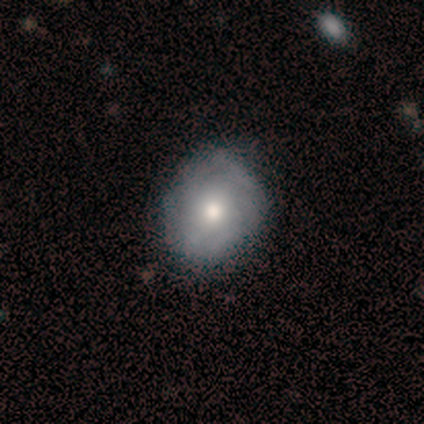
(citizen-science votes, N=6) smooth_or_featured: smooth (p=0.50) [alt: featured or disk p=0.33]
how_rounded: in between (p=0.67) [alt: round p=0.33]
merging: none (p=0.80) [alt: major disturbance p=0.20]